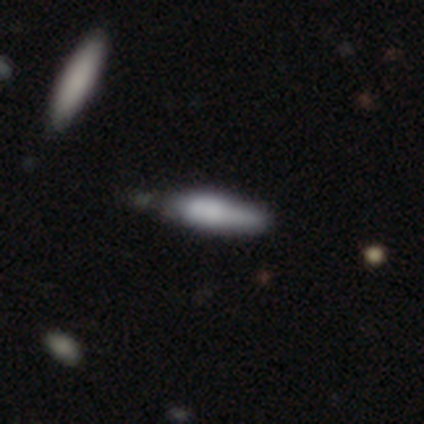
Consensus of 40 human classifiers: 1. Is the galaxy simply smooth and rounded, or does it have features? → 65% smooth, 35% featured or disk, 0% star or artifact.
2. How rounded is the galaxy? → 65% cigar-shaped, 35% in between, 0% round.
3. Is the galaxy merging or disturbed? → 42% none, 18% minor disturbance, 5% merger, 2% major disturbance.